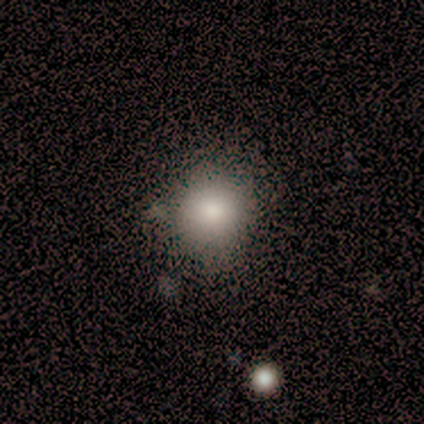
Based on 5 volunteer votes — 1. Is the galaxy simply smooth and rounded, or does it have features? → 100% smooth, 0% featured or disk, 0% star or artifact.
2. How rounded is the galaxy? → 100% round, 0% in between, 0% cigar-shaped.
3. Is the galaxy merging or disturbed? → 80% none, 20% minor disturbance, 0% major disturbance, 0% merger.